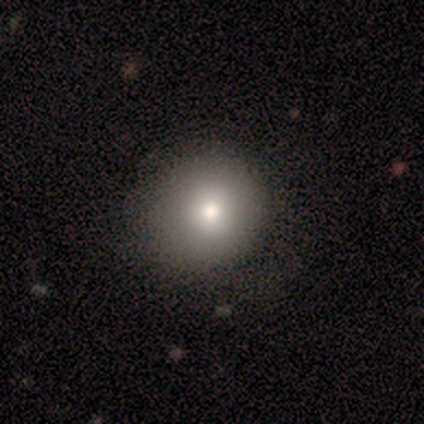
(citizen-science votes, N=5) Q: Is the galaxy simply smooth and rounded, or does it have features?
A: smooth — 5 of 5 (100%).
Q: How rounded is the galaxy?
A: round — 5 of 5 (100%).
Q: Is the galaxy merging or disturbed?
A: none — 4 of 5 (80%).